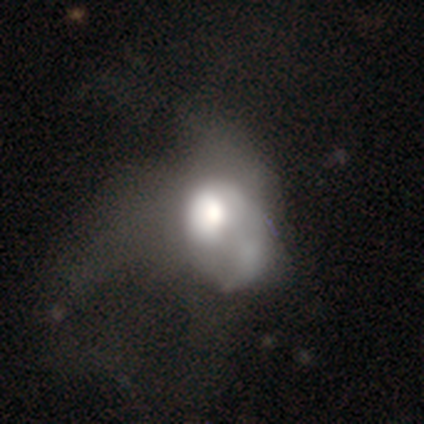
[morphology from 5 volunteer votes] smooth-or-featured: smooth: 40% (tied) | featured or disk: 40% (tied) | star or artifact: 20%
  how-rounded: in between: 100% | round: 0% | cigar-shaped: 0%
  merging: major disturbance: 75% | merger: 25% | none: 0% | minor disturbance: 0%